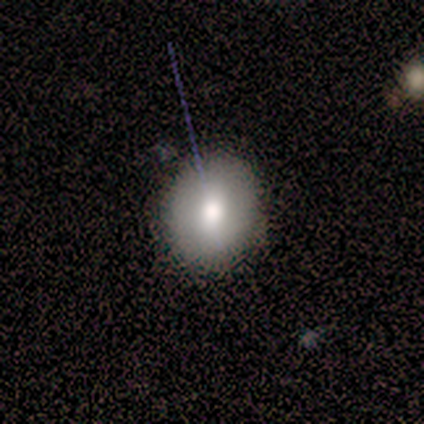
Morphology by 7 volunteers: This is likely a smooth galaxy (71%). How rounded: clearly round (80%). Merging: clearly none (86%).